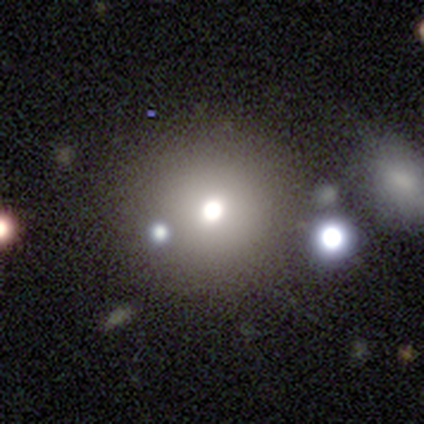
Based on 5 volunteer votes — Smooth or featured? 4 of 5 (80%) said smooth. How rounded? 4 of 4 (100%) said round. Merging? 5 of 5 (100%) said none.